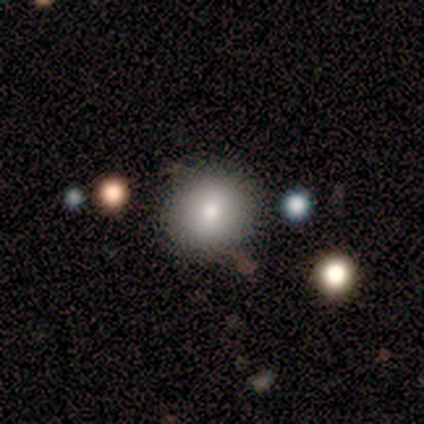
Volunteers were most divided on "merging": none: 80%, minor disturbance: 20%, major disturbance: 0%, merger: 0%. More confident: smooth or featured — smooth (100%); how rounded — round (100%).